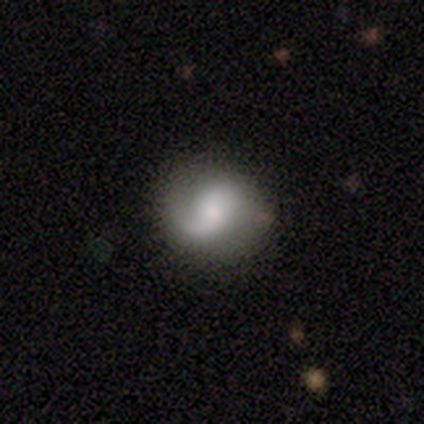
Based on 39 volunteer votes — Overall: featured or disk (72%). Edge-on disk: no (96%). Bar: no (63%; weak 37%). Spiral arms: yes (100%). Spiral arm count: 2 (59%; 1 26%). Spiral winding: medium (41%; loose 33%). Bulge size: moderate (37%; small 26%). Merging: none (49%).